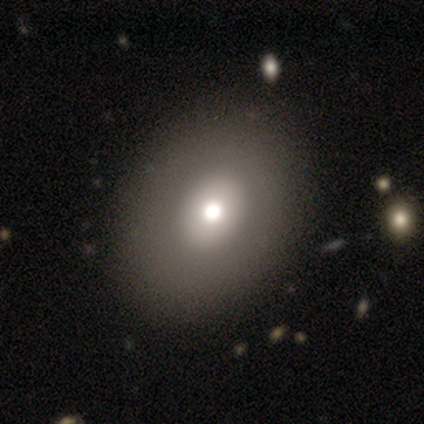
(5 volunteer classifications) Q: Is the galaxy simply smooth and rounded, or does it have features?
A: smooth — 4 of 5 (80%).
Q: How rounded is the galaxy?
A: in between — 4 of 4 (100%).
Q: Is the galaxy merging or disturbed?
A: none — 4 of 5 (80%).